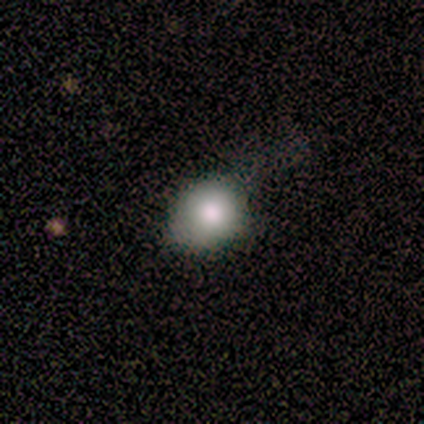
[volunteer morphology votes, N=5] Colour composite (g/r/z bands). It shows a smooth galaxy with no disk features (60%) that is round (67%). Merging: minor disturbance (60%).